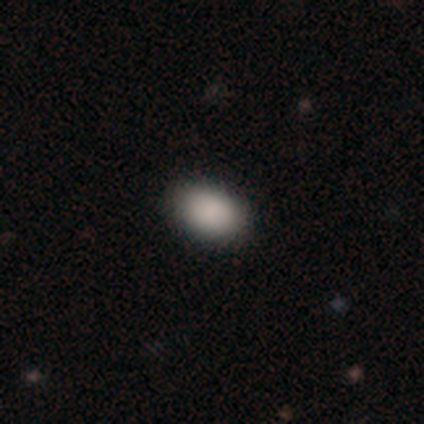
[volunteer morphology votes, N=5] Q: Smooth or featured?
A: smooth (100%)
Q: How rounded?
A: in between (100%)
Q: Merging?
A: none (80%); runner-up: major disturbance (20%)